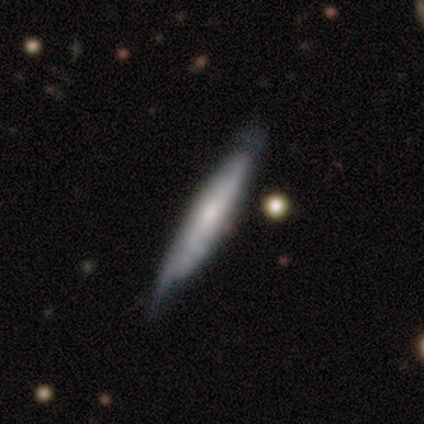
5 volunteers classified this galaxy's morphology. Smooth or featured? 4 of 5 (80%) said featured or disk. Edge-on disk? 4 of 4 (100%) said yes. Edge-on bulge? 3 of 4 (75%) said none. Merging? 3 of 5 (60%) said none.